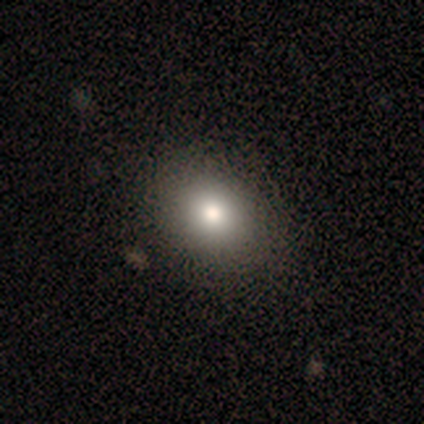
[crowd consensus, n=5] Q: Smooth or featured?
A: smooth (80%); runner-up: star or artifact (20%)
Q: How rounded?
A: round (50%); tied with: in between (50%)
Q: Merging?
A: none (100%)